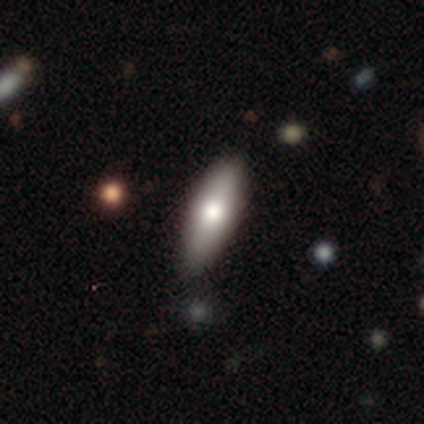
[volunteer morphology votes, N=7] A smooth galaxy with no disk features (57%) that is cigar-shaped (75%).

Vote fractions:
- Smooth or featured? smooth: 57% / featured or disk: 43% / star or artifact: 0%
- How rounded? cigar-shaped: 75% / in between: 25% / round: 0%
- Merging? none: 86% / minor disturbance: 14% / major disturbance: 0% / merger: 0%